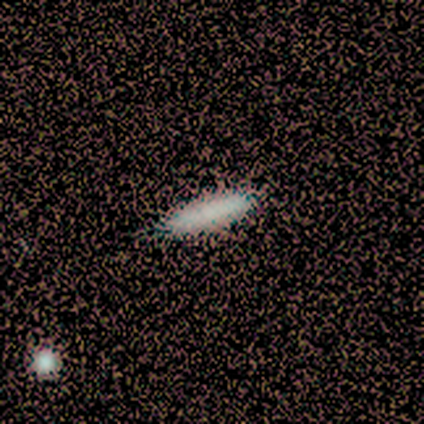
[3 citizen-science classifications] Q: Smooth or featured?
A: smooth (100%)
Q: How rounded?
A: cigar-shaped (100%)
Q: Merging?
A: none (100%)